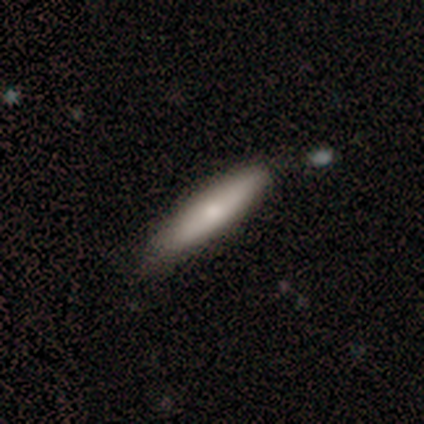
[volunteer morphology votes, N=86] A smooth galaxy with no disk features (71%) that is cigar-shaped (92%). Merging: none (77%).